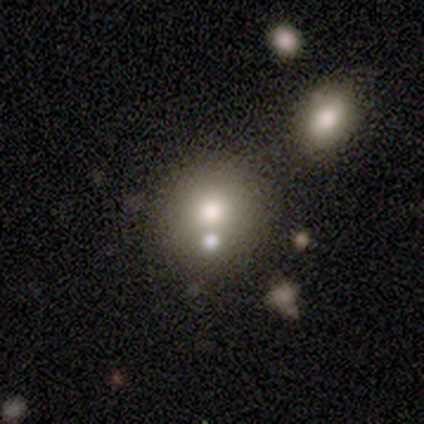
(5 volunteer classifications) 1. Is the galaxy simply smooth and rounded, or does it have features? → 60% smooth, 20% featured or disk, 20% star or artifact.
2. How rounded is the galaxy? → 67% round, 33% in between, 0% cigar-shaped.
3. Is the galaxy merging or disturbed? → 50% none (tied), 50% merger (tied), 0% minor disturbance, 0% major disturbance.